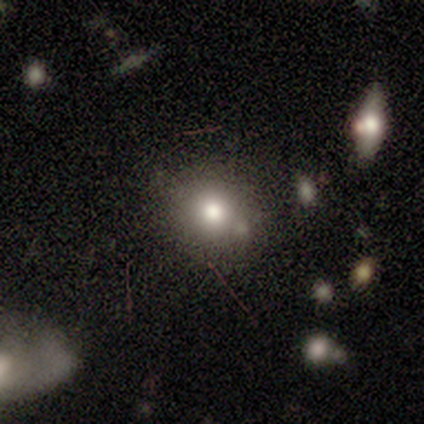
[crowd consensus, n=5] A star or artifact, not a galaxy (60%).